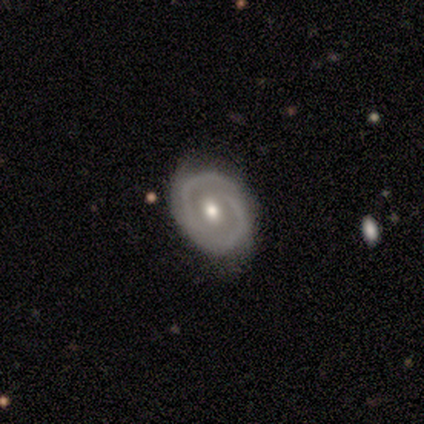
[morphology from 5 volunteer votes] Q: Smooth or featured?
A: featured or disk (100%)
Q: Edge-on disk?
A: no (100%)
Q: Bar?
A: no (100%)
Q: Spiral arms?
A: yes (60%); runner-up: no (40%)
Q: Spiral winding?
A: tight (67%); runner-up: loose (33%)
Q: Spiral arm count?
A: 2 (100%)
Q: Bulge size?
A: moderate (80%); runner-up: small (20%)
Q: Merging?
A: none (100%)